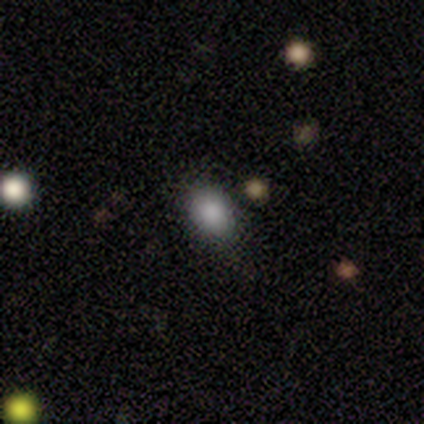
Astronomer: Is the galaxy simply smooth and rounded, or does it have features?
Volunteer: smooth — 78%.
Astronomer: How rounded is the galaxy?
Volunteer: in between — 59% (runner-up: round, 41%).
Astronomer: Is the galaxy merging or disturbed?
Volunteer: none — 69%.